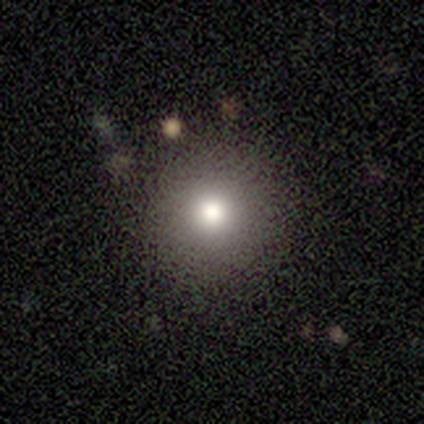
This is clearly a smooth galaxy (100%). How rounded: clearly round (100%). Merging: clearly none (100%).